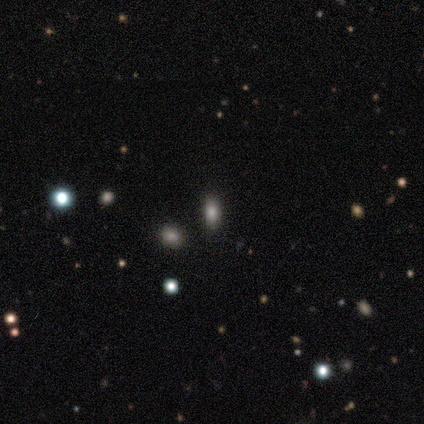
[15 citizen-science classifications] This appears to be a smooth galaxy with no disk features (87%) that is in between round and cigar-shaped (85%). Merging: none (85%).